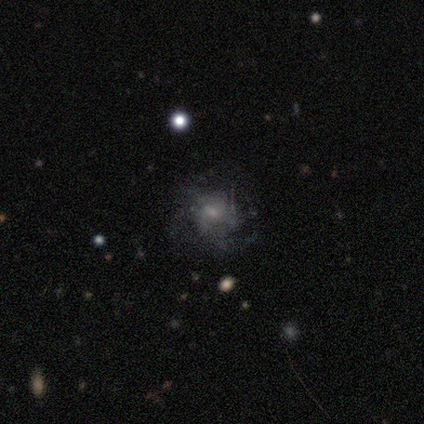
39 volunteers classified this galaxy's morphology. This appears to be a featured or disk galaxy (59%) with no bar (82%), medium (55%) spiral arms (50%, tied with no) and a small central bulge (73%). Merging: none (62%).